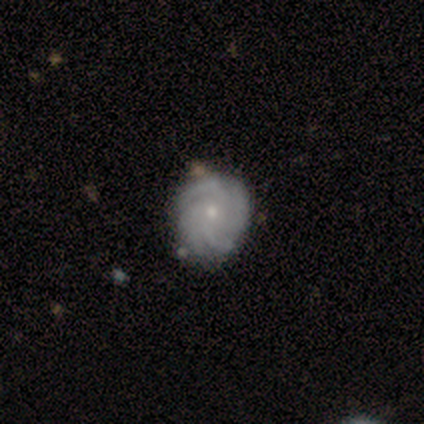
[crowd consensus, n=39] smooth_or_featured: featured or disk (p=0.92) [alt: smooth p=0.05]
disk_edge_on: no (p=0.97) [alt: yes p=0.03]
bar: no (p=0.86) [alt: weak p=0.11]
has_spiral_arms: yes (p=0.97) [alt: no p=0.03]
spiral_winding: tight (p=0.68) [alt: loose p=0.18]
spiral_arm_count: 4 (p=0.59) [alt: more than 4 p=0.15]
bulge_size: small (p=0.74) [alt: moderate p=0.23]
merging: none (p=0.89) [alt: minor disturbance p=0.05]